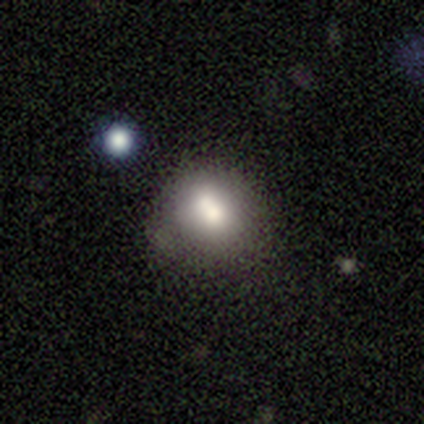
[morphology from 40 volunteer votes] smooth 68%, featured or disk 18%, star or artifact 15%. Down the decision tree: how rounded — round (63%); merging — none (41%).